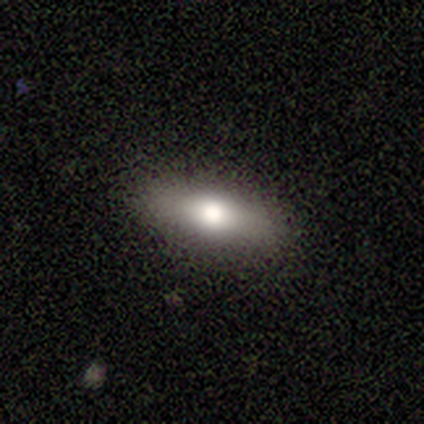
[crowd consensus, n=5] Smooth or featured? 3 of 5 (60%) said smooth. How rounded? 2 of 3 (67%) said cigar-shaped. Merging? 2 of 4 (50%, tied with minor disturbance) said none.